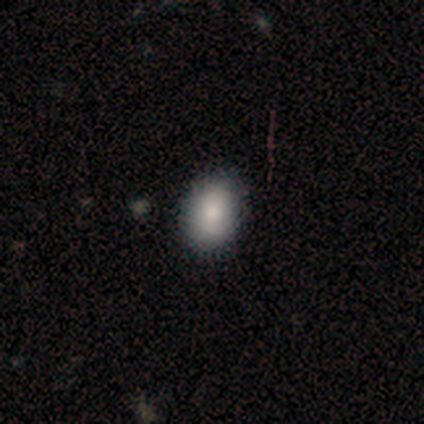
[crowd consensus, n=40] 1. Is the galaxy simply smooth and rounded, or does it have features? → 78% smooth, 12% star or artifact, 10% featured or disk.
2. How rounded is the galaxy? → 68% in between, 29% round, 3% cigar-shaped.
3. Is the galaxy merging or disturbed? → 89% none, 9% minor disturbance, 3% merger, 0% major disturbance.